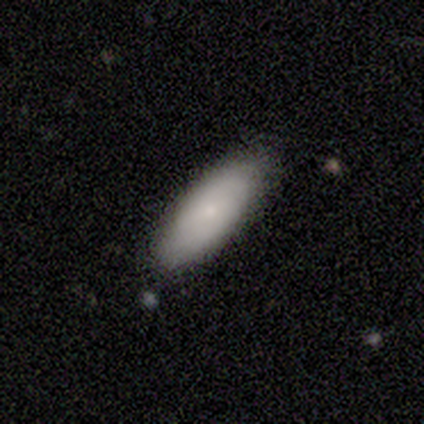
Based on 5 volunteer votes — This appears to be a smooth galaxy with no disk features (60%) that is in between round and cigar-shaped (100%). Merging: none (100%).